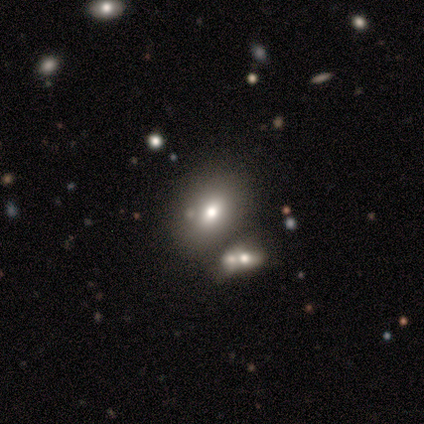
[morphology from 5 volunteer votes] A smooth galaxy with no disk features (60%) that is in between round and cigar-shaped (100%).

Vote fractions:
- Smooth or featured? smooth: 60% / star or artifact: 40% / featured or disk: 0%
- How rounded? in between: 100% / round: 0% / cigar-shaped: 0%
- Merging? none: 67% / merger: 33% / minor disturbance: 0% / major disturbance: 0%